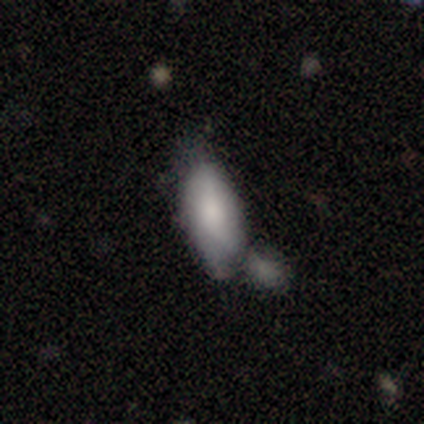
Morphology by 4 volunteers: Volunteers were most divided on "merging": minor disturbance: 75%, merger: 25%, none: 0%, major disturbance: 0%. More confident: smooth or featured — smooth (100%); how rounded — in between (100%).